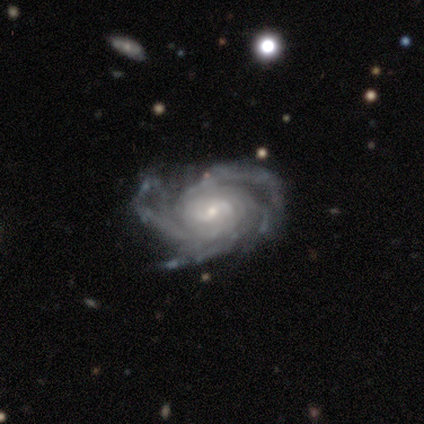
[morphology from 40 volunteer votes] Smooth or featured? 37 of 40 (92%) said featured or disk. Edge-on disk? 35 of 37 (95%) said no. Bar? 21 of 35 (60%) said no. Spiral arms? 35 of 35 (100%) said yes. Spiral winding? 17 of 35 (49%) said medium. Spiral arm count? 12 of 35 (34%) said 3. Bulge size? 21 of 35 (60%) said small. Merging? 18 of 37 (49%) said none.